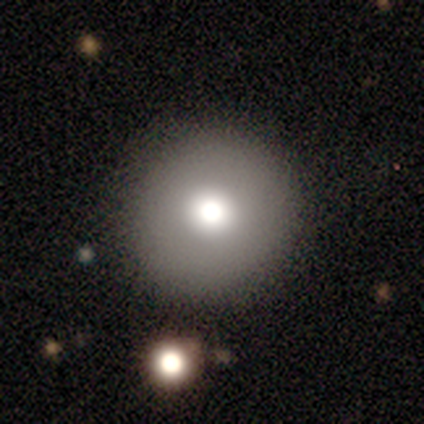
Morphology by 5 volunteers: Volunteers were most divided on "smooth or featured": featured or disk: 60%, smooth: 40%, star or artifact: 0%. More confident: edge-on disk — no (100%); bar — no (100%); spiral arms — no (100%); merging — none (100%); bulge size — moderate (67%).